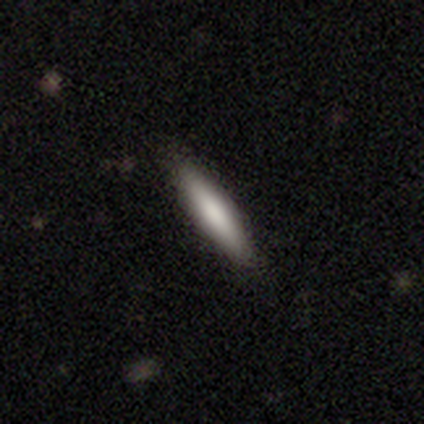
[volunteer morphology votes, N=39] This appears to be a smooth galaxy with no disk features (87%) that is cigar-shaped (76%). Merging: none (85%).